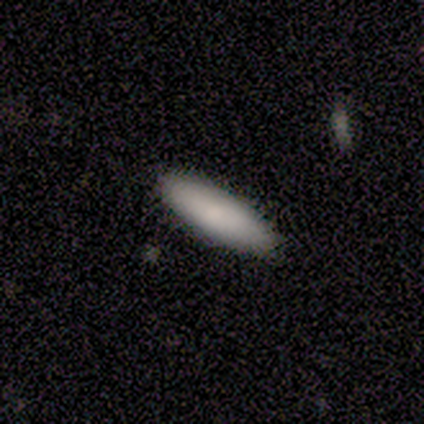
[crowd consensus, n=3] This appears to be a smooth galaxy with no disk features (100%) that is cigar-shaped (67%). Merging: none (67%).